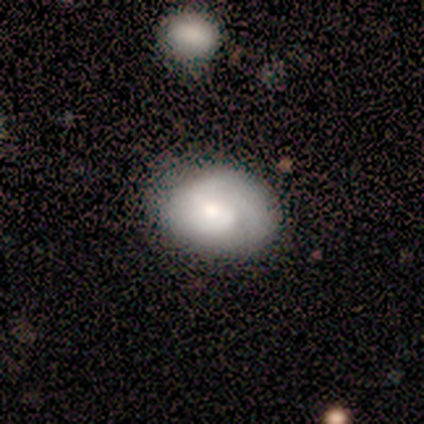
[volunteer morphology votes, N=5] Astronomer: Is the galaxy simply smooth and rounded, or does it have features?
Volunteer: featured or disk — 60% (runner-up: smooth, 40%).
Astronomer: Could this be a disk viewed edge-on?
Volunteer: no — 67%.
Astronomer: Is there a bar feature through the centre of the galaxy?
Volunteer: weak — 50%, tied with no at 50%.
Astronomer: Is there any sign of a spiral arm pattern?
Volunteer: yes — 50%, tied with no at 50%.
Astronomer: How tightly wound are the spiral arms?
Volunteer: loose — 100%.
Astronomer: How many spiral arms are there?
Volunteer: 2 — 100%.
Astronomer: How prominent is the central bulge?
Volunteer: moderate — 100%.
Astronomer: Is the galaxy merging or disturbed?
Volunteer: none — 80%.